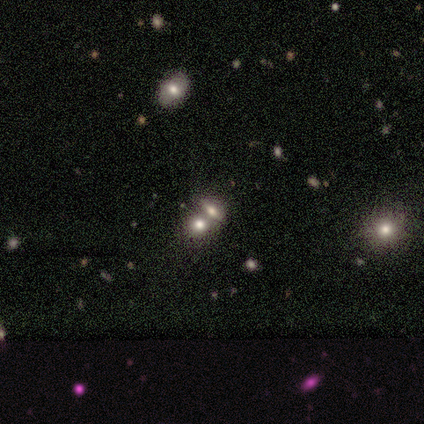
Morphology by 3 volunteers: Smooth or featured? smooth (67%)
How rounded? round (50%, tied with in between)
Merging? none (100%)